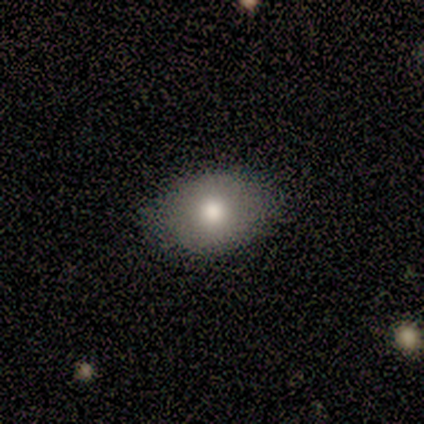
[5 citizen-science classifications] Smooth or featured: smooth — 80% (featured or disk — 20%)
How rounded: in between — 75% (round — 25%)
Merging: none — 100%